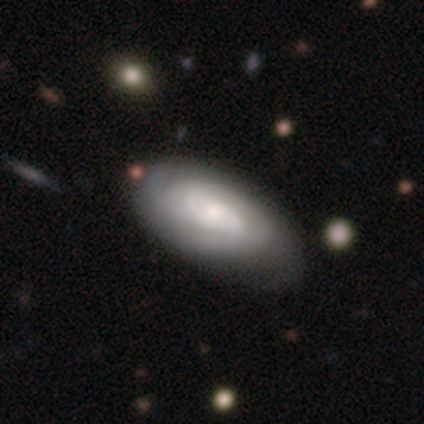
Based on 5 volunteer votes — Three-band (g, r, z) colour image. It shows a featured or disk galaxy (60%) with no bar (100%), tight (100%) spiral arms (100%) and a moderate central bulge (33%, tied with small and none). Merging: none (60%).